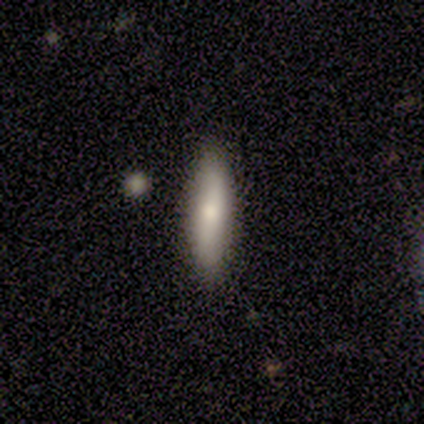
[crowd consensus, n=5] smooth_or_featured: smooth (p=1.00)
how_rounded: cigar-shaped (p=0.60) [alt: in between p=0.40]
merging: none (p=0.80) [alt: minor disturbance p=0.20]